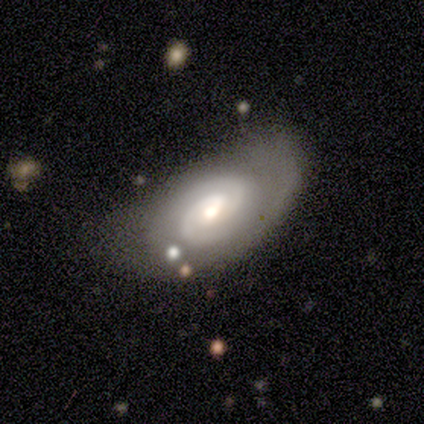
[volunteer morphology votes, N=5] Smooth or featured? featured or disk (80%)
Edge-on disk? no (100%)
Bar? weak (50%, tied with no)
Spiral arms? yes (100%)
Spiral winding? tight (75%)
Spiral arm count? 2 (100%)
Bulge size? moderate (50%, tied with small)
Merging? minor disturbance (60%)